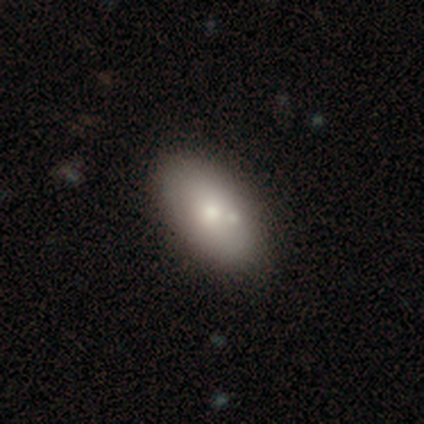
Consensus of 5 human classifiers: A smooth galaxy with no disk features (100%) that is in between round and cigar-shaped (100%). Merging: none (80%).